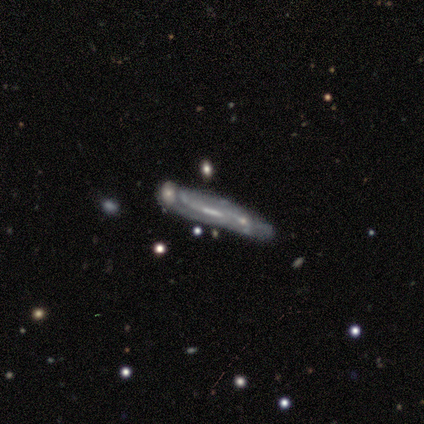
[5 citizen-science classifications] Q: Smooth or featured?
A: featured or disk (100%)
Q: Edge-on disk?
A: yes (60%); runner-up: no (40%)
Q: Edge-on bulge?
A: none (67%); runner-up: boxy (33%)
Q: Merging?
A: major disturbance (40%); tied with: merger (40%)